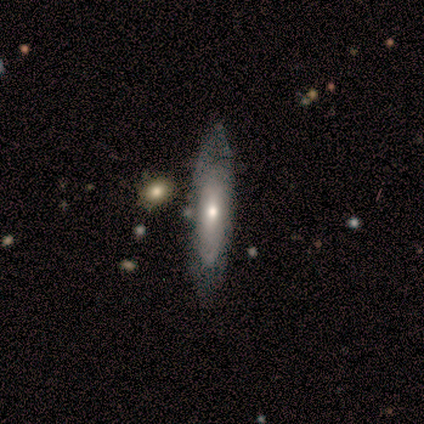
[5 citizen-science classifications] Q: Smooth or featured?
A: featured or disk (60%); runner-up: smooth (40%)
Q: Edge-on disk?
A: yes (67%); runner-up: no (33%)
Q: Edge-on bulge?
A: none (50%); tied with: rounded (50%)
Q: Merging?
A: none (80%); runner-up: minor disturbance (20%)